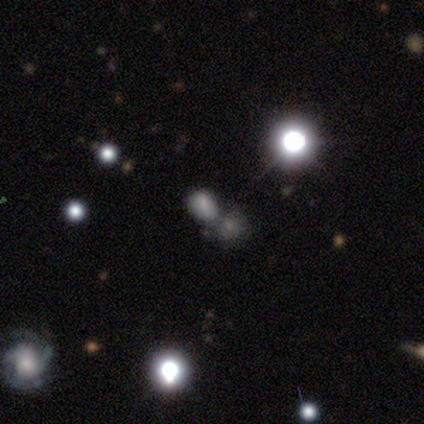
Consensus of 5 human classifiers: smooth_or_featured: smooth (p=0.60) [alt: star or artifact p=0.40]
how_rounded: round (p=0.33) [tied with: in between p=0.33, cigar-shaped p=0.33]
merging: merger (p=1.00)